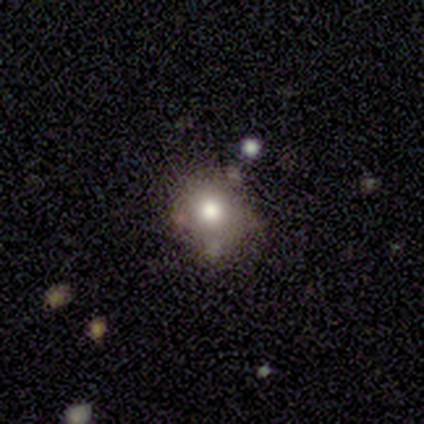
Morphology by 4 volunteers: Smooth or featured? smooth (75%)
How rounded? round (67%)
Merging? none (100%)